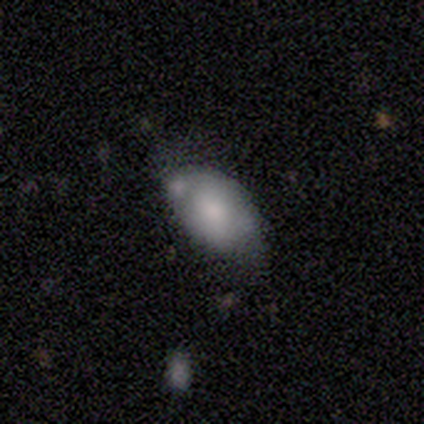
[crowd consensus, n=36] Q: Smooth or featured?
A: smooth (75%); runner-up: featured or disk (17%)
Q: How rounded?
A: in between (96%); runner-up: round (4%)
Q: Merging?
A: none (45%); runner-up: minor disturbance (42%)